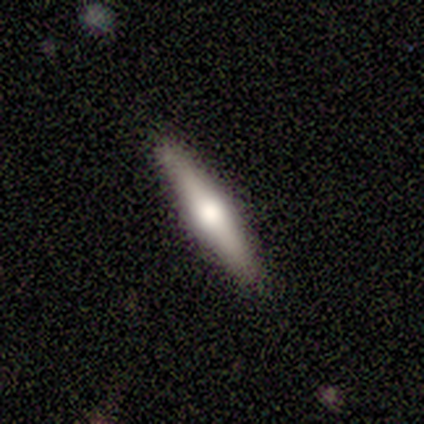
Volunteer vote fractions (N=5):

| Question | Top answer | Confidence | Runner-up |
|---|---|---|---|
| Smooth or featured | featured or disk | 80% | smooth (20%) |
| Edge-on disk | yes | 75% | no (25%) |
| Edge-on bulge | rounded | 67% | boxy (33%) |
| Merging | none | 80% | minor disturbance (20%) |